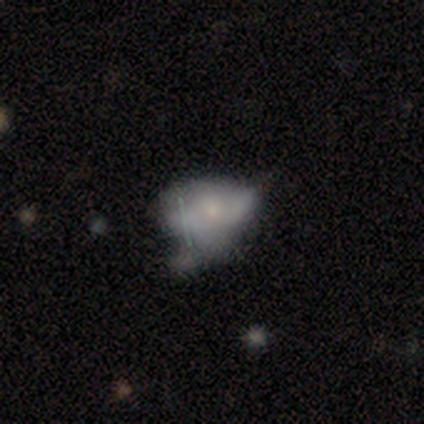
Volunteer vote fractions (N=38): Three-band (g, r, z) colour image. It shows a featured or disk galaxy (47%) with no bar (76%), no spiral arms (100%) and a small central bulge (65%). Merging: minor disturbance (38%).